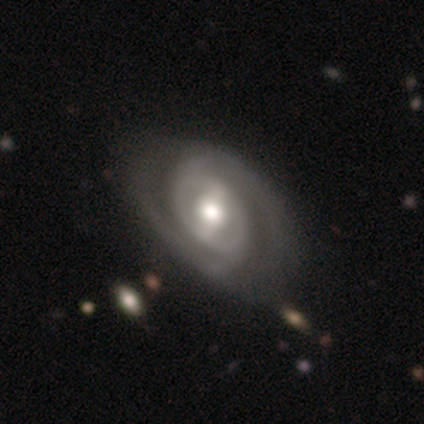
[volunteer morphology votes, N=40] Smooth or featured? featured or disk (88%)
Edge-on disk? no (97%)
Bar? strong (44%)
Spiral arms? yes (97%)
Spiral winding? tight (67%)
Spiral arm count? 2 (76%)
Bulge size? moderate (68%)
Merging? none (51%)